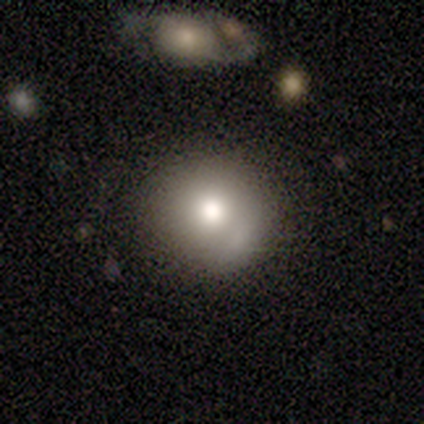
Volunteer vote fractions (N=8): A smooth galaxy with no disk features (88%) that is round (86%).

Vote fractions:
- Smooth or featured? smooth: 88% / featured or disk: 12% / star or artifact: 0%
- How rounded? round: 86% / in between: 14% / cigar-shaped: 0%
- Merging? none: 62% / major disturbance: 25% / merger: 12% / minor disturbance: 0%